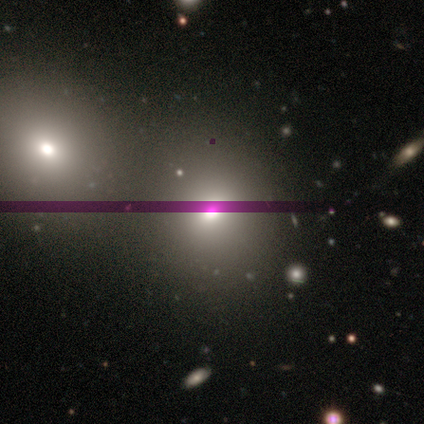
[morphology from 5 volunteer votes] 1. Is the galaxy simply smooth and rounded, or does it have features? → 60% smooth, 20% featured or disk, 20% star or artifact.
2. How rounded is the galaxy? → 100% round, 0% in between, 0% cigar-shaped.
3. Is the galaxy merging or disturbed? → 75% none, 25% minor disturbance, 0% major disturbance, 0% merger.